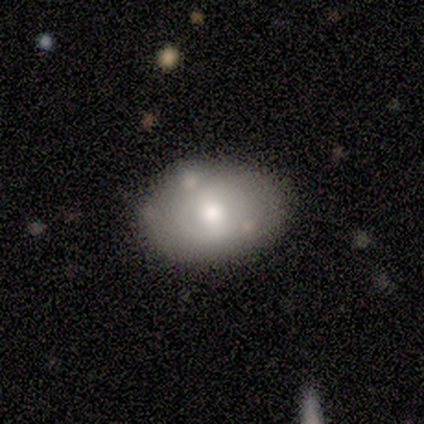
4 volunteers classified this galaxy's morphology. smooth-or-featured: featured or disk: 75% | star or artifact: 25% | smooth: 0%
  disk-edge-on: no: 100% | yes: 0%
    bar: no: 67% | weak: 33% | strong: 0%
    has-spiral-arms: no: 100% | yes: 0%
    bulge-size: large: 33% (tied) | moderate: 33% (tied) | small: 33% (tied) | dominant: 0% | none: 0%
  merging: none: 67% | minor disturbance: 33% | major disturbance: 0% | merger: 0%